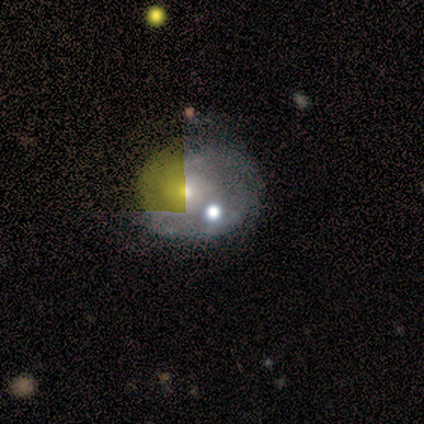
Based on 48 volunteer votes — Q: Smooth or featured?
A: featured or disk (73%); runner-up: star or artifact (21%)
Q: Edge-on disk?
A: no (94%); runner-up: yes (6%)
Q: Bar?
A: no (91%); runner-up: weak (6%)
Q: Spiral arms?
A: yes (82%); runner-up: no (18%)
Q: Spiral winding?
A: tight (70%); runner-up: medium (22%)
Q: Spiral arm count?
A: can't tell (78%); runner-up: 2 (11%)
Q: Bulge size?
A: moderate (55%); runner-up: small (39%)
Q: Merging?
A: none (55%); runner-up: minor disturbance (21%)